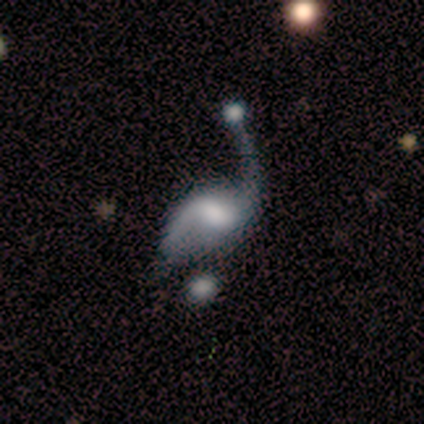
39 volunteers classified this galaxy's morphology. This is likely a featured or disk galaxy (79%). It is clearly not viewed edge-on (94%). Bar: possibly weak (55%). Spiral arm pattern: clearly yes (97%). Spiral arm count: clearly 2 (82%). Spiral winding: clearly loose (82%). Central bulge: marginally moderate (34%). Merging: marginally major disturbance (39%).